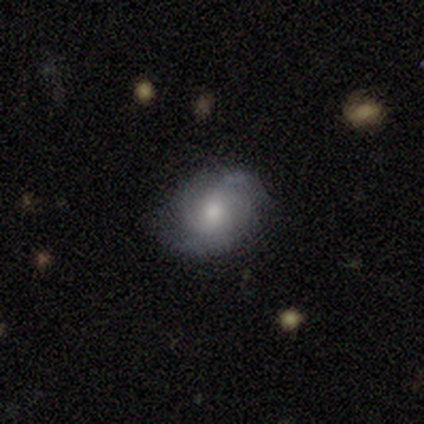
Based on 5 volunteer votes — A featured or disk galaxy (80%) with no bar (75%), loose (50%) spiral arms (100%) and a moderate central bulge (75%). Merging: none (60%).